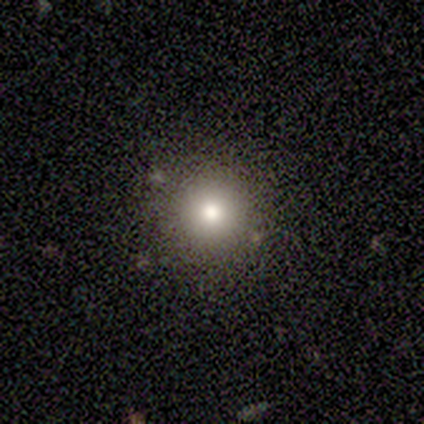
This appears to be a smooth galaxy with no disk features (100%) that is round (100%). Merging: none (100%).